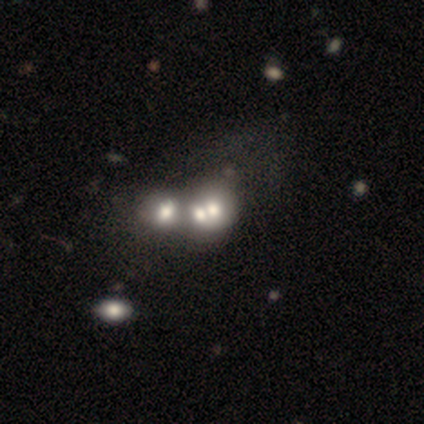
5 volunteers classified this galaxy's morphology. Smooth or featured?
  - smooth: 40% * (tied)
  - featured or disk: 40% * (tied)
  - star or artifact: 20%
How rounded?
  - round: 50% * (tied)
  - in between: 50% * (tied)
  - cigar-shaped: 0%
Merging?
  - merger: 75% *
  - none: 25%
  - minor disturbance: 0%
  - major disturbance: 0%